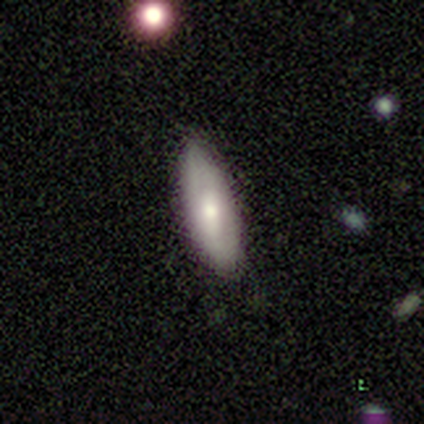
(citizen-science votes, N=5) smooth 60%, featured or disk 40%, star or artifact 0%. Down the decision tree: how rounded — cigar-shaped (67%); merging — none (100%).